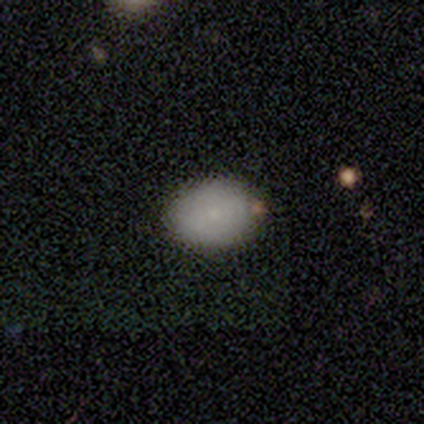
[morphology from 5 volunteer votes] smooth-or-featured: smooth: 80% | star or artifact: 20% | featured or disk: 0%
  how-rounded: in between: 75% | round: 25% | cigar-shaped: 0%
  merging: none: 50% (tied) | minor disturbance: 50% (tied) | major disturbance: 0% | merger: 0%